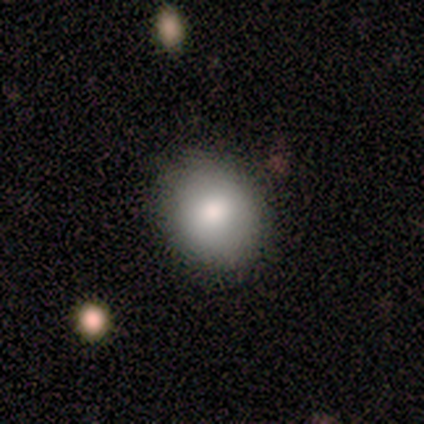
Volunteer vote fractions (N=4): smooth 50% (tied), star or artifact 50% (tied), featured or disk 0%. Down the decision tree: how rounded — round (50%, tied with in between); merging — none (100%).